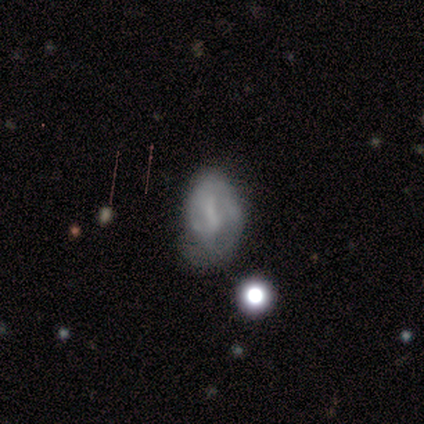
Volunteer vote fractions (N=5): A featured or disk galaxy (60%) with a weak bar (100%), 2 (50%, tied with can't tell) tight (50%, tied with medium) spiral arms (67%) and no central bulge (100%).

Vote fractions:
- Smooth or featured? featured or disk: 60% / star or artifact: 40% / smooth: 0%
- Edge-on disk? no: 100% / yes: 0%
- Bar? weak: 100% / strong: 0% / no: 0%
- Spiral arms? yes: 67% / no: 33%
- Spiral winding? tight: 50% (tied) / medium: 50% (tied) / loose: 0%
- Spiral arm count? 2: 50% (tied) / can't tell: 50% (tied) / 1: 0% / 3: 0% / 4: 0% / more than 4: 0%
- Bulge size? none: 100% / dominant: 0% / large: 0% / moderate: 0% / small: 0%
- Merging? minor disturbance: 67% / major disturbance: 33% / none: 0% / merger: 0%